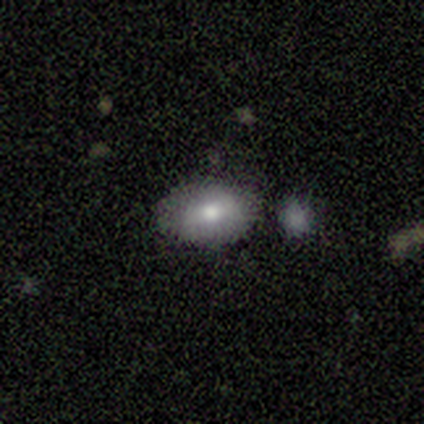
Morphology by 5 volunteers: A smooth galaxy with no disk features (60%) that is in between round and cigar-shaped (100%).

Vote fractions:
- Smooth or featured? smooth: 60% / featured or disk: 40% / star or artifact: 0%
- How rounded? in between: 100% / round: 0% / cigar-shaped: 0%
- Merging? none: 60% / minor disturbance: 40% / major disturbance: 0% / merger: 0%